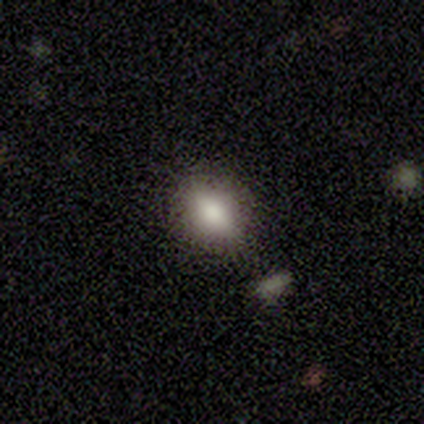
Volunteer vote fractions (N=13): Smooth or featured? smooth (85%)
How rounded? in between (64%)
Merging? none (85%)